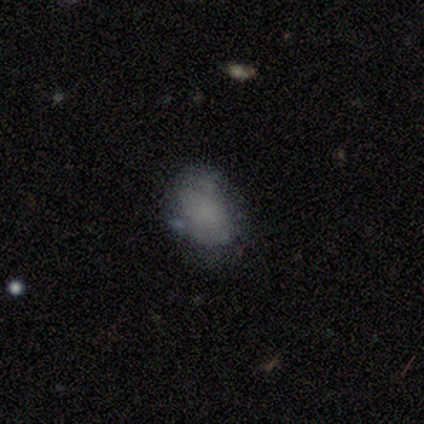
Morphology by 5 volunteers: Smooth or featured?
  - smooth: 100% *
  - featured or disk: 0%
  - star or artifact: 0%
How rounded?
  - in between: 80% *
  - round: 20%
  - cigar-shaped: 0%
Merging?
  - none: 100% *
  - minor disturbance: 0%
  - major disturbance: 0%
  - merger: 0%